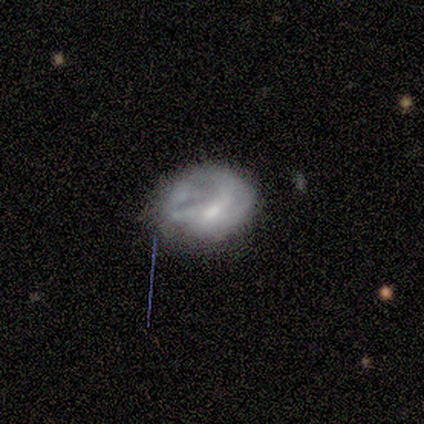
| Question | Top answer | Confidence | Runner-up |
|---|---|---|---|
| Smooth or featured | smooth | 33% | tied: featured or disk (33%), star or artifact (33%) |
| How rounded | in between | 100% | — |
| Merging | none | 83% | minor disturbance (17%) |